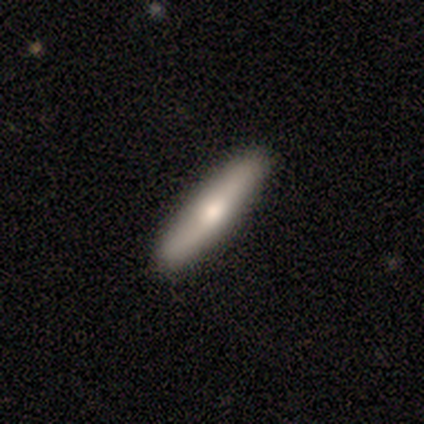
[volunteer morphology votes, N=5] featured or disk 60%, smooth 40%, star or artifact 0%. Down the decision tree: edge-on disk — yes (100%); edge-on bulge — rounded (100%); merging — none (80%).